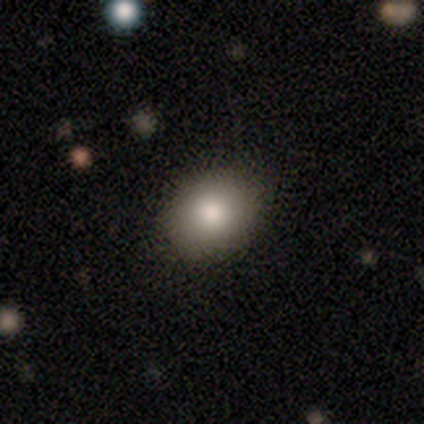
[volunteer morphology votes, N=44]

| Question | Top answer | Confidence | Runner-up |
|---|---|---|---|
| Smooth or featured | smooth | 82% | star or artifact (11%) |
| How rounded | in between | 53% | round (47%) |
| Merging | none | 90% | minor disturbance (10%) |